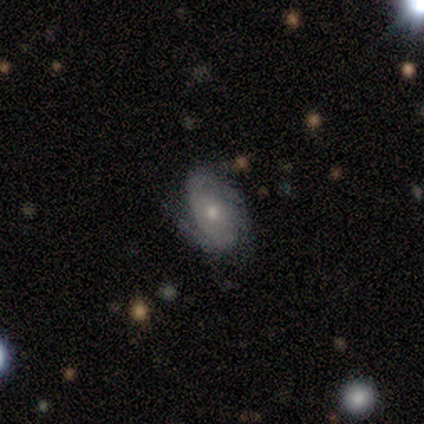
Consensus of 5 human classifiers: Overall: featured or disk (80%). Edge-on disk: no (100%). Bar: no (100%). Spiral arms: yes (75%). Spiral arm count: can't tell (100%). Spiral winding: tight (67%; medium 33%). Bulge size: small (75%). Merging: none (60%; minor disturbance 40%).